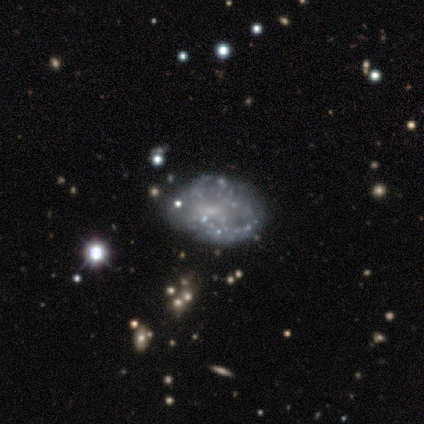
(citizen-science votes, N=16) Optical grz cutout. It shows a featured or disk galaxy (75%) with no bar (83%), no spiral arms (75%) and no central bulge (58%). Merging: none (86%).